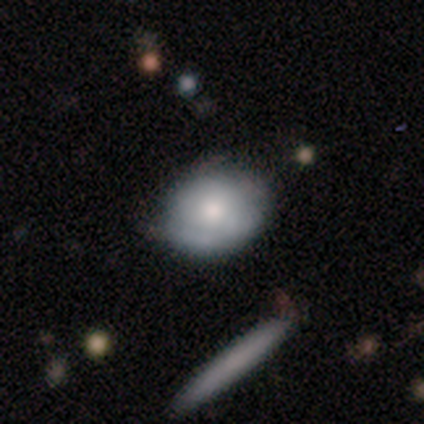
Smooth or featured? 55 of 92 (60%) said smooth. How rounded? 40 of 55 (73%) said round. Merging? 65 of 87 (75%) said none.